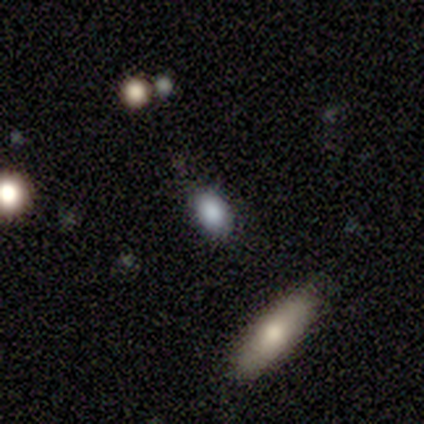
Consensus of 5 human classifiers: smooth-or-featured: smooth: 60% | featured or disk: 20% | star or artifact: 20%
  how-rounded: in between: 100% | round: 0% | cigar-shaped: 0%
  merging: none: 100% | minor disturbance: 0% | major disturbance: 0% | merger: 0%